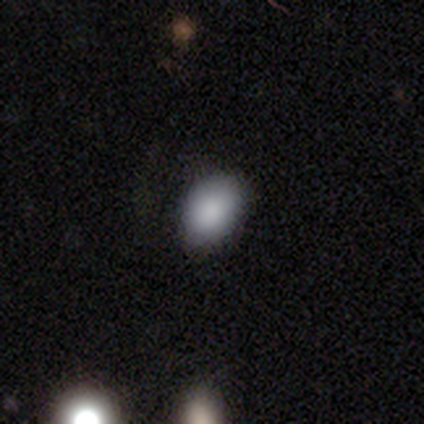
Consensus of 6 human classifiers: Consensus on every question: smooth or featured — smooth (100%); how rounded — in between (100%); merging — none (100%).